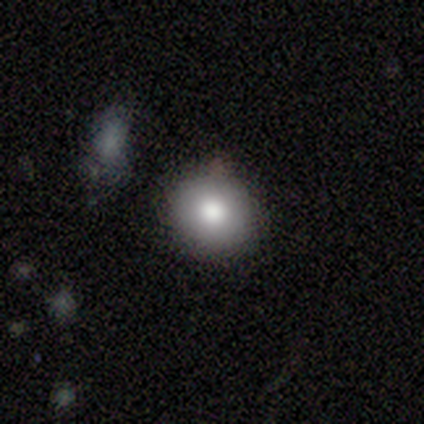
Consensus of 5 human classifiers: smooth 100%, featured or disk 0%, star or artifact 0%. Down the decision tree: how rounded — round (100%); merging — none (80%).